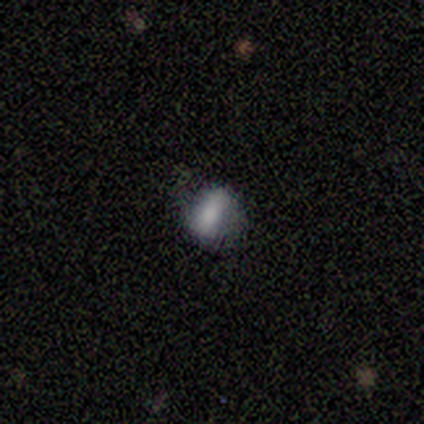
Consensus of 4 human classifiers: Smooth or featured?
  - smooth: 100% *
  - featured or disk: 0%
  - star or artifact: 0%
How rounded?
  - in between: 50% *
  - round: 25%
  - cigar-shaped: 25%
Merging?
  - none: 100% *
  - minor disturbance: 0%
  - major disturbance: 0%
  - merger: 0%